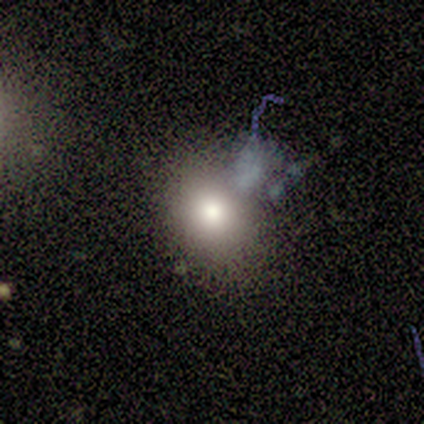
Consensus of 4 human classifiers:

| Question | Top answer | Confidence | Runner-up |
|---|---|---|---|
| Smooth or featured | smooth | 75% | featured or disk (25%) |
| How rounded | in between | 67% | round (33%) |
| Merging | major disturbance | 50% | none (25%) |